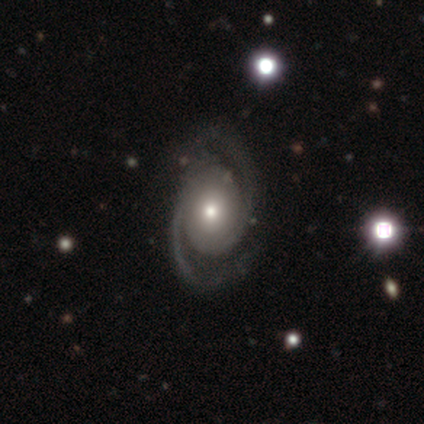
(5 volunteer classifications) Morphology: type=featured or disk (100%); edge-on=no (100%); bar=no (60%); spiral arms=yes (100%); winding=loose (60%); arm count=2 (100%); bulge=small (60%); merging=none (80%).